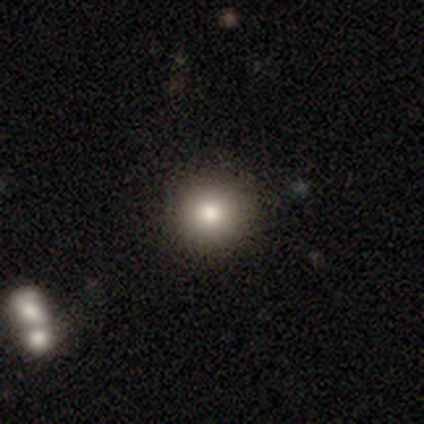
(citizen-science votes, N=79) smooth 84%, star or artifact 9%, featured or disk 8%. Down the decision tree: how rounded — round (100%); merging — none (43%).